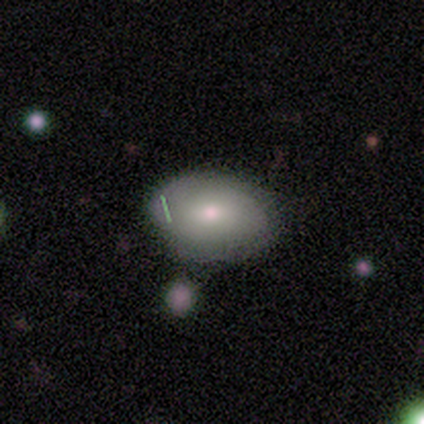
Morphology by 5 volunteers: Smooth or featured: smooth — 80% (featured or disk — 20%)
How rounded: in between — 75% (round — 25%)
Merging: none — 60% (minor disturbance — 20%)